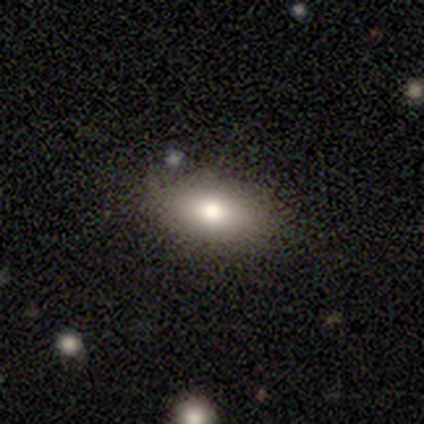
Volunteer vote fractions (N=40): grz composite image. It shows a smooth galaxy with no disk features (70%) that is in between round and cigar-shaped (86%). Merging: none (77%).